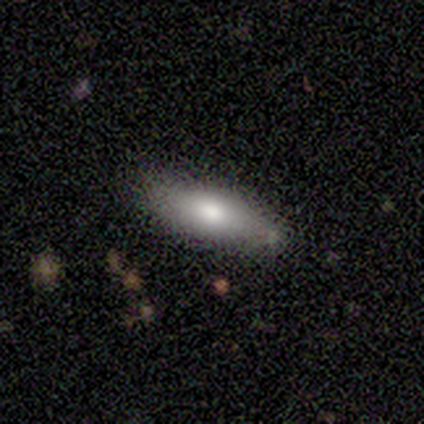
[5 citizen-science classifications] This appears to be a smooth galaxy with no disk features (80%) that is in between round and cigar-shaped (50%). Merging: none (80%).